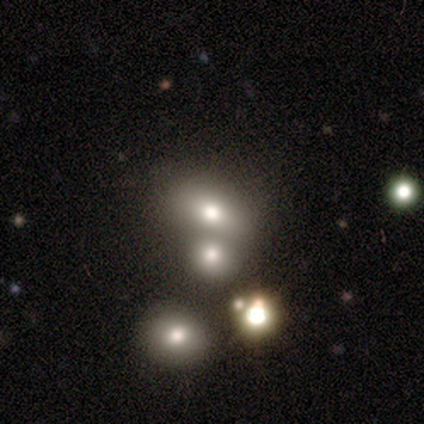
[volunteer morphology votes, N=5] Smooth or featured? 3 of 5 (60%) said smooth. How rounded? 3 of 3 (100%) said in between. Merging? 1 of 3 (33%, tied with major disturbance and merger) said none.